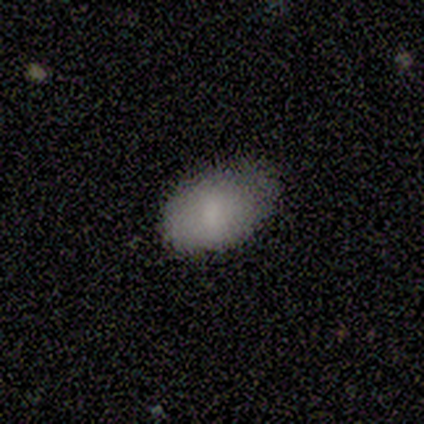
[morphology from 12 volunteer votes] Volunteers were most divided on "smooth or featured": smooth: 83%, featured or disk: 17%, star or artifact: 0%. More confident: how rounded — in between (100%); merging — none (92%).